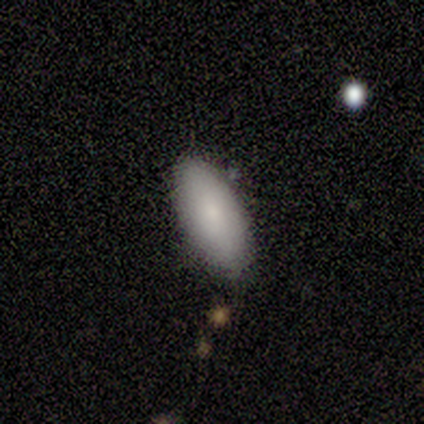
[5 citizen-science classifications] This is clearly a smooth galaxy (100%). How rounded: clearly in between (80%). Merging: likely none (60%).